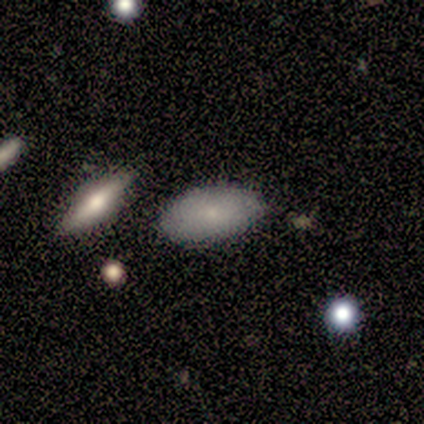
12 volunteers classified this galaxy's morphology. Smooth or featured: smooth — 67% (featured or disk — 25%)
How rounded: in between — 100%
Merging: none — 100%